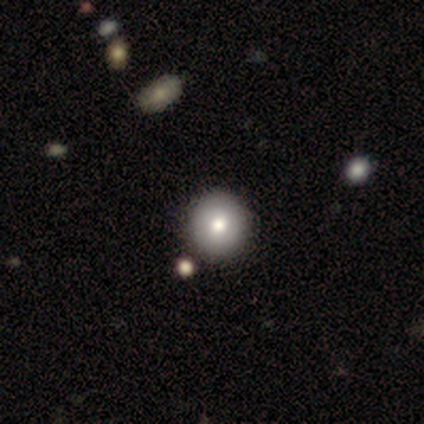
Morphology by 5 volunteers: Volunteers were most divided on "smooth or featured": smooth: 60%, featured or disk: 40%, star or artifact: 0%. More confident: how rounded — round (100%); merging — none (60%).